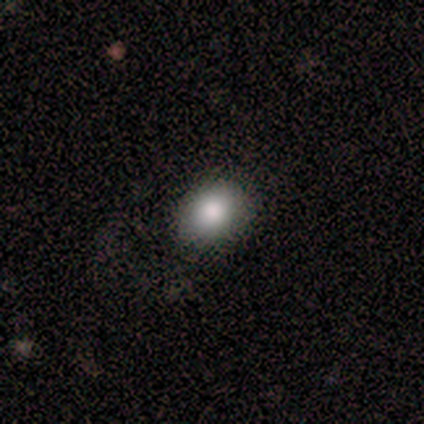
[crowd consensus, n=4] Morphology: type=smooth (100%); roundness=round (100%); merging=none (100%).